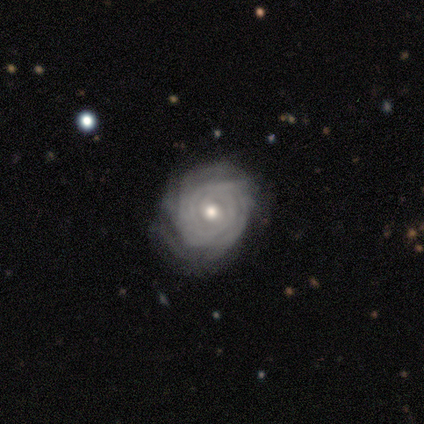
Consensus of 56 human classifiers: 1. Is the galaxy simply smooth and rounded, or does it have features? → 88% featured or disk, 9% smooth, 4% star or artifact.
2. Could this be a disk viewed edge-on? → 98% no, 2% yes.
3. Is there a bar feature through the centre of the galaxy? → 65% no, 31% weak, 4% strong.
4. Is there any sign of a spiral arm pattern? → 96% yes, 4% no.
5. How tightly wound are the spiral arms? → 83% tight, 11% medium, 7% loose.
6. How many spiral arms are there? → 46% can't tell, 24% more than 4, 13% 4, 9% 2, 4% 1, 4% 3.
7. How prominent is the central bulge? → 77% moderate, 21% small, 2% none, 0% dominant, 0% large.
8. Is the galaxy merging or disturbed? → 70% none, 19% minor disturbance, 11% major disturbance, 0% merger.